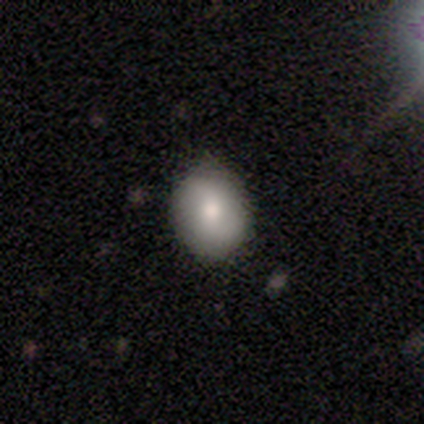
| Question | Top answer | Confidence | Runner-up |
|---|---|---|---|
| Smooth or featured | smooth | 80% | featured or disk (20%) |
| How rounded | round | 75% | in between (25%) |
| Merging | none | 60% | minor disturbance (40%) |